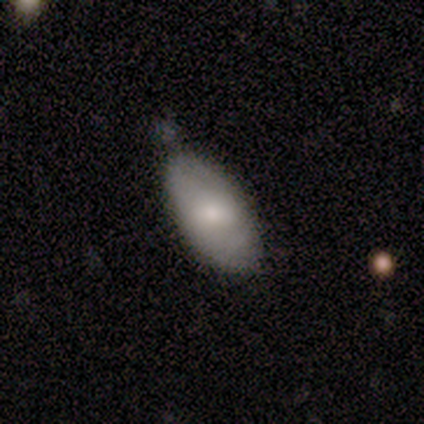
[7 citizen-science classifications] This appears to be a smooth galaxy with no disk features (71%) that is in between round and cigar-shaped (100%). Merging: none (71%).